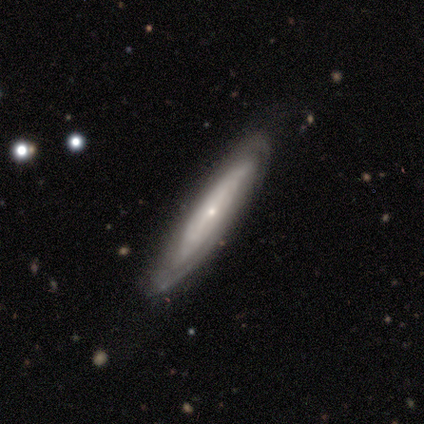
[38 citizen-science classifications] Overall: featured or disk (76%). Edge-on disk: yes (52%; no 48%). Edge-on bulge: rounded (80%). Merging: none (81%).